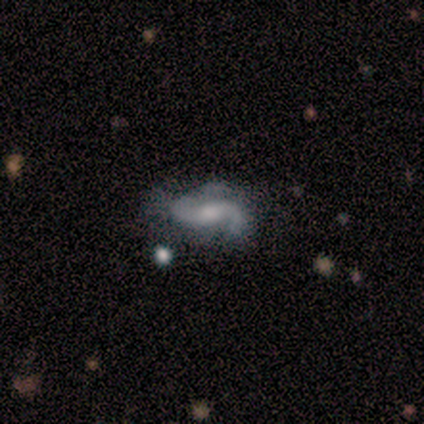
This is clearly a featured or disk galaxy (100%). It is clearly not viewed edge-on (100%). Bar: possibly weak (50%, tied with no). Spiral arm pattern: clearly yes (100%). Spiral arm count: clearly 2 (100%). Spiral winding: likely loose (75%). Central bulge: likely small (75%). Merging: likely none (75%).